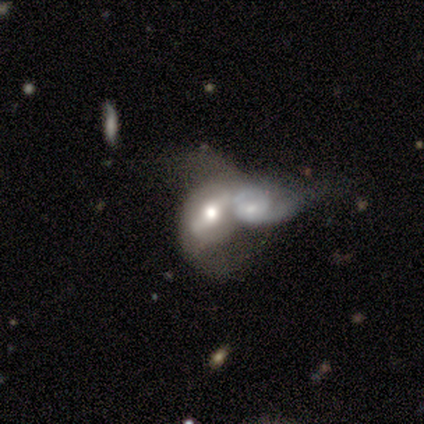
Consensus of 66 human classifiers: featured or disk 74%, smooth 21%, star or artifact 5%. Down the decision tree: edge-on disk — no (90%); bar — strong (50%); spiral arms — yes (57%); spiral arm count — 2 (72%); spiral winding — medium (48%, tied with loose); bulge size — moderate (80%); merging — merger (78%).